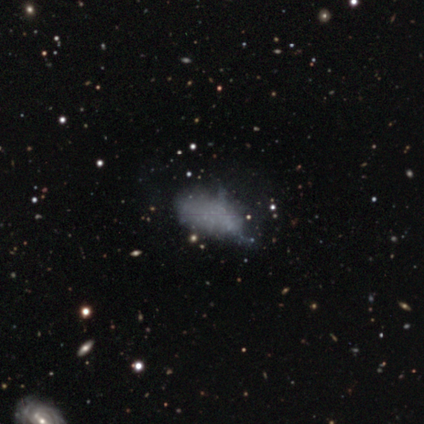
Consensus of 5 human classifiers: smooth_or_featured: smooth (p=0.60) [alt: featured or disk p=0.40]
how_rounded: in between (p=1.00)
merging: minor disturbance (p=0.60) [alt: none p=0.40]